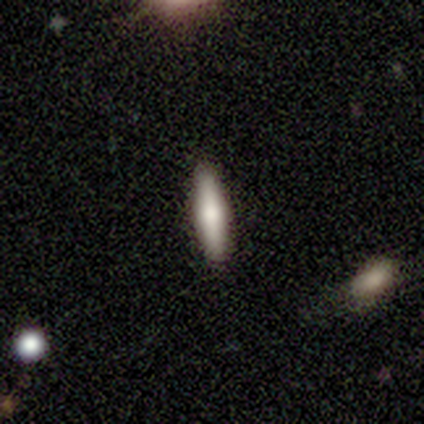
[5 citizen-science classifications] smooth-or-featured: smooth: 60% | featured or disk: 40% | star or artifact: 0%
  how-rounded: in between: 100% | round: 0% | cigar-shaped: 0%
  merging: none: 100% | minor disturbance: 0% | major disturbance: 0% | merger: 0%